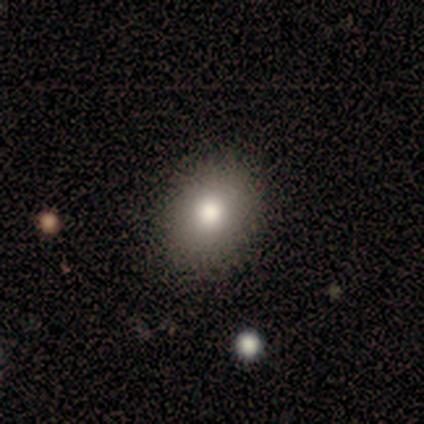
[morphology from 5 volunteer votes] A smooth galaxy with no disk features (60%) that is in between round and cigar-shaped (100%). Merging: none (50%, tied with minor disturbance).